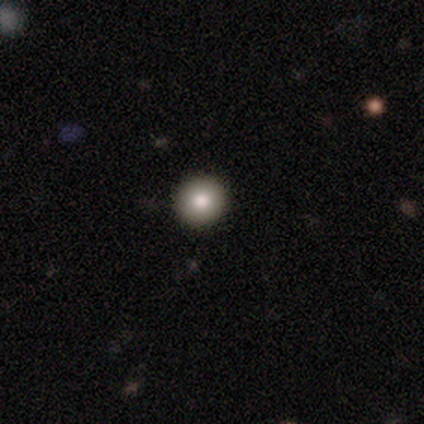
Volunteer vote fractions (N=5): A smooth galaxy with no disk features (80%) that is round (100%).

Vote fractions:
- Smooth or featured? smooth: 80% / star or artifact: 20% / featured or disk: 0%
- How rounded? round: 100% / in between: 0% / cigar-shaped: 0%
- Merging? none: 100% / minor disturbance: 0% / major disturbance: 0% / merger: 0%